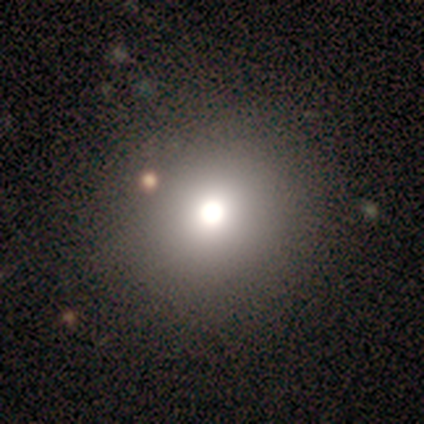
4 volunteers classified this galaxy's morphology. smooth 100%, featured or disk 0%, star or artifact 0%. Down the decision tree: how rounded — round (100%); merging — none (100%).